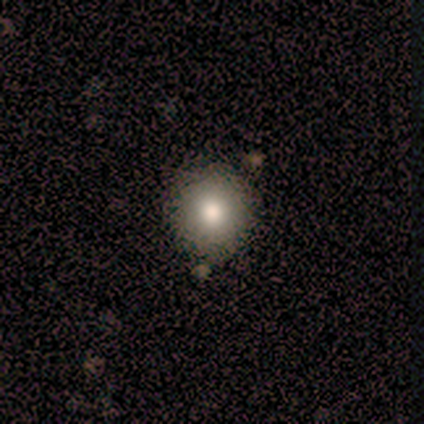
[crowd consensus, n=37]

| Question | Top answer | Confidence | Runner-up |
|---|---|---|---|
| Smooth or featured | smooth | 84% | featured or disk (8%) |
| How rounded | round | 94% | in between (6%) |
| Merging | none | 94% | minor disturbance (6%) |